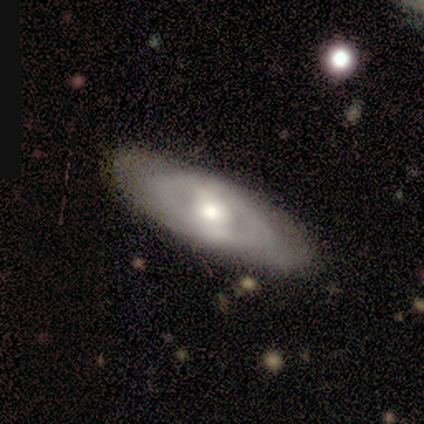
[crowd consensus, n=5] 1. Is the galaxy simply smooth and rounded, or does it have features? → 60% featured or disk, 40% smooth, 0% star or artifact.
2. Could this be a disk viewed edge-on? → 100% no, 0% yes.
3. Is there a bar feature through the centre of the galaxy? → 67% strong, 33% weak, 0% no.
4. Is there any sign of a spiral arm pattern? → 100% yes, 0% no.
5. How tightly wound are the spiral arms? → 67% tight, 33% medium, 0% loose.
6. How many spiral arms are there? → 67% can't tell, 33% 2, 0% 1, 0% 3, 0% 4, 0% more than 4.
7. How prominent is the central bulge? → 33% large (tied), 33% moderate (tied), 33% small (tied), 0% dominant, 0% none.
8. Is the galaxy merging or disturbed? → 100% none, 0% minor disturbance, 0% major disturbance, 0% merger.